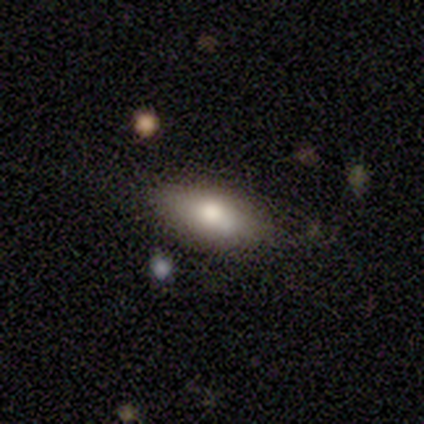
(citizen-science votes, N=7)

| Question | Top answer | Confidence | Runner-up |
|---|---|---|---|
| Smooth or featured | smooth | 57% | featured or disk (29%) |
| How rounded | in between | 100% | — |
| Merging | none | 83% | minor disturbance (17%) |